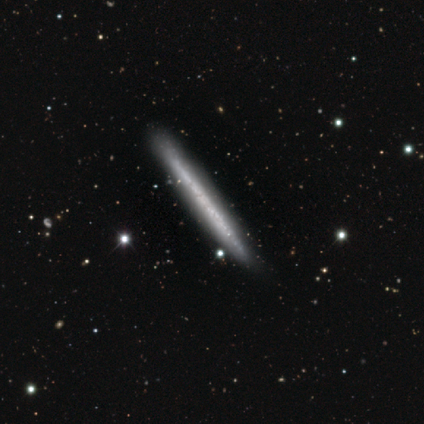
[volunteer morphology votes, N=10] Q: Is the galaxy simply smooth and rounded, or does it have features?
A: featured or disk — 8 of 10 (80%).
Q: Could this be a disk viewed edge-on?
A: yes — 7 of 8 (88%).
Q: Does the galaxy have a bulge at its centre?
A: none — 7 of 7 (100%).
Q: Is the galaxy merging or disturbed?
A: none — 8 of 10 (80%).